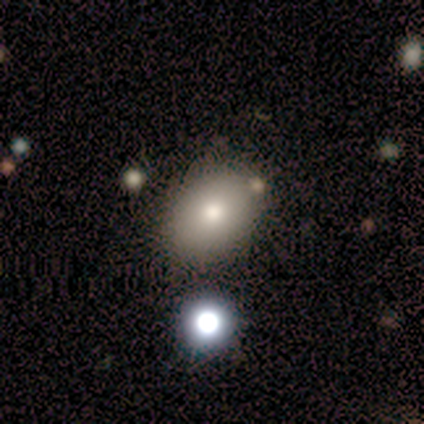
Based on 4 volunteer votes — Smooth or featured?
  - smooth: 100% *
  - featured or disk: 0%
  - star or artifact: 0%
How rounded?
  - in between: 100% *
  - round: 0%
  - cigar-shaped: 0%
Merging?
  - none: 75% *
  - minor disturbance: 25%
  - major disturbance: 0%
  - merger: 0%